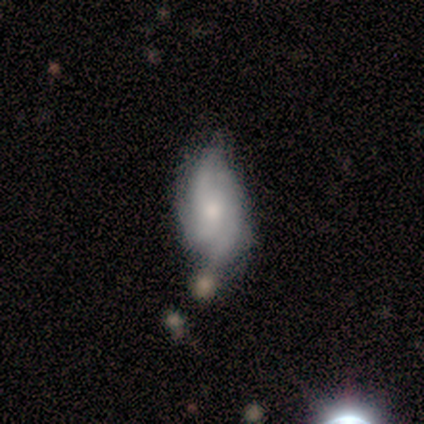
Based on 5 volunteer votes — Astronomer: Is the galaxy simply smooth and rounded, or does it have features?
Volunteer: featured or disk — 60%.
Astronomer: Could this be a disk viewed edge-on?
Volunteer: no — 100%.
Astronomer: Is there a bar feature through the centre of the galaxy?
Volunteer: weak — 67%.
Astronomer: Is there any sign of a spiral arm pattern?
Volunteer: yes — 100%.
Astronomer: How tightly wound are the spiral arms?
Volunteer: tight — 33%, tied with medium and loose at 33%.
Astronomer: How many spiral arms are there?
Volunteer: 3 — 67%.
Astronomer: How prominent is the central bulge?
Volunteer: moderate — 67%.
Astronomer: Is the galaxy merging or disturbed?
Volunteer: none — 75%.